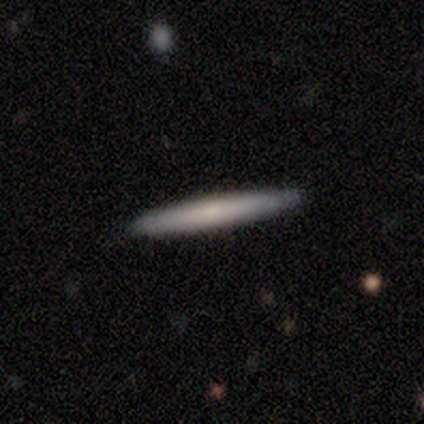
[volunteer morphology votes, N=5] Overall: smooth (100%). How rounded: cigar-shaped (100%). Merging: none (100%).